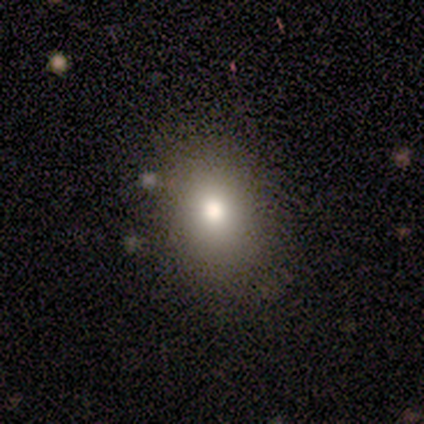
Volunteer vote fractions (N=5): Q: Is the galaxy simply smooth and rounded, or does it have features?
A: smooth — 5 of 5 (100%).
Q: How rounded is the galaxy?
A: in between — 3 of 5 (60%).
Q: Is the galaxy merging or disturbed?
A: none — 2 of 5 (40%, tied with minor disturbance).